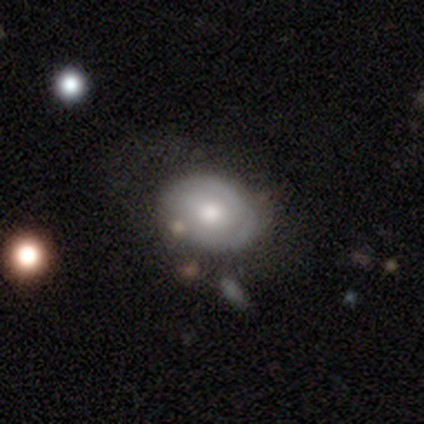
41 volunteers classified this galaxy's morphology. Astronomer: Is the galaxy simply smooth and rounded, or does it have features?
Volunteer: featured or disk — 61%.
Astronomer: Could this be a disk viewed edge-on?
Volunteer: no — 92%.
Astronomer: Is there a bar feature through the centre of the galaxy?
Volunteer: no — 91%.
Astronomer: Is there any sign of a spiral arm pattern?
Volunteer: yes — 57% (runner-up: no, 43%).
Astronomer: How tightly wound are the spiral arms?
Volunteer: tight — 77%.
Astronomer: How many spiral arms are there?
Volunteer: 2 — 69%.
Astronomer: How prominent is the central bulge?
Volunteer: moderate — 57%.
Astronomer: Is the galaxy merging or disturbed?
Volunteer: none — 68%.